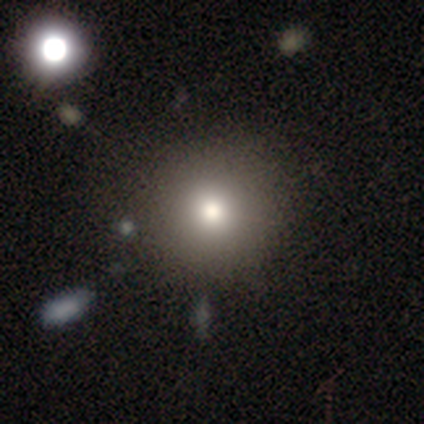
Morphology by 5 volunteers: Smooth or featured? smooth (80%)
How rounded? round (100%)
Merging? none (100%)